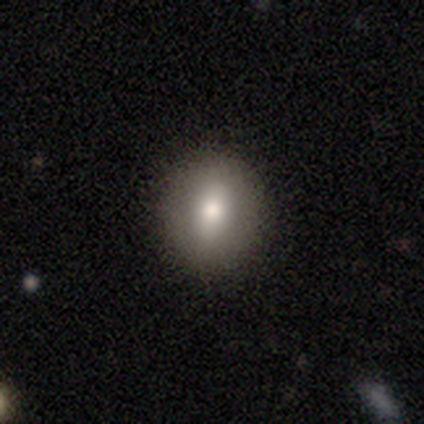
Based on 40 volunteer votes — Smooth or featured? 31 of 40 (78%) said smooth. How rounded? 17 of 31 (55%) said round. Merging? 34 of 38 (89%) said none.